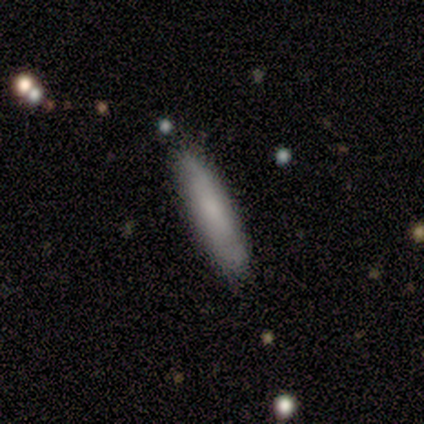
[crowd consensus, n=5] Smooth or featured: smooth — 60% (featured or disk — 40%)
How rounded: cigar-shaped — 67% (in between — 33%)
Merging: none — 80% (major disturbance — 20%)